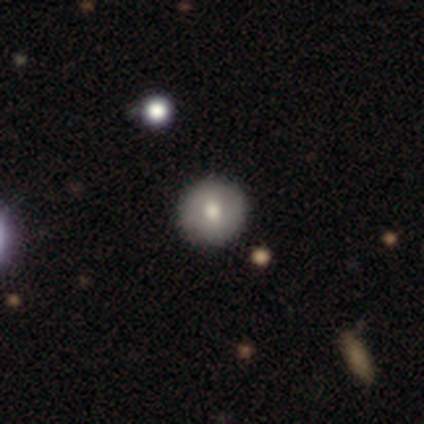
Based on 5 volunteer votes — smooth-or-featured: smooth: 80% | star or artifact: 20% | featured or disk: 0%
  how-rounded: round: 100% | in between: 0% | cigar-shaped: 0%
  merging: none: 100% | minor disturbance: 0% | major disturbance: 0% | merger: 0%